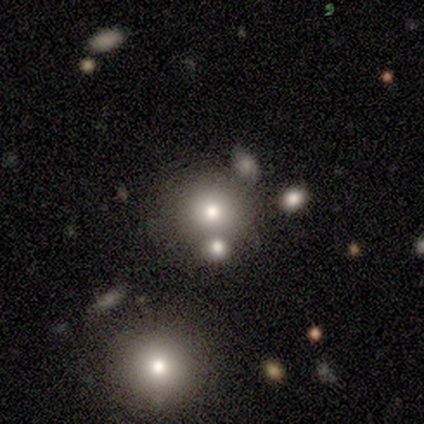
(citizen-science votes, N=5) A smooth galaxy with no disk features (100%) that is round (100%).

Vote fractions:
- Smooth or featured? smooth: 100% / featured or disk: 0% / star or artifact: 0%
- How rounded? round: 100% / in between: 0% / cigar-shaped: 0%
- Merging? none: 80% / merger: 20% / minor disturbance: 0% / major disturbance: 0%